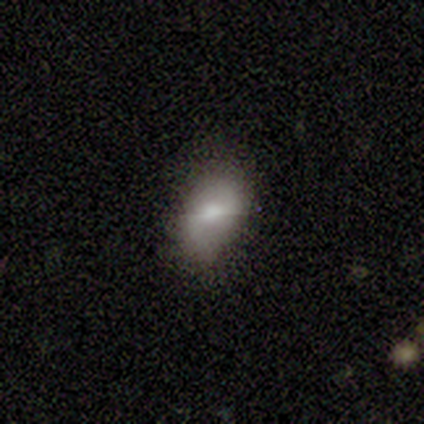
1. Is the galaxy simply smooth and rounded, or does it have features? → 60% smooth, 40% star or artifact, 0% featured or disk.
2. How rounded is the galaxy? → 100% in between, 0% round, 0% cigar-shaped.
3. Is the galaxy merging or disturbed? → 100% minor disturbance, 0% none, 0% major disturbance, 0% merger.